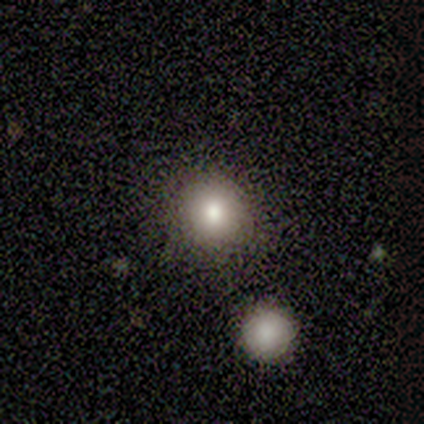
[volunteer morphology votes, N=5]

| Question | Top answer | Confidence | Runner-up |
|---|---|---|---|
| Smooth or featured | smooth | 100% | — |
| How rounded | round | 100% | — |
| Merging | none | 60% | minor disturbance (20%) |